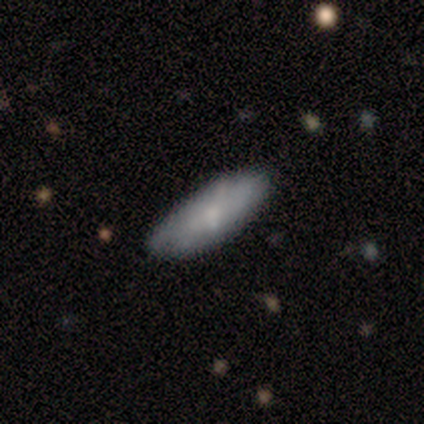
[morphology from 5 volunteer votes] Q: Smooth or featured?
A: smooth (60%); runner-up: featured or disk (40%)
Q: How rounded?
A: cigar-shaped (67%); runner-up: in between (33%)
Q: Merging?
A: none (40%); tied with: minor disturbance (40%)